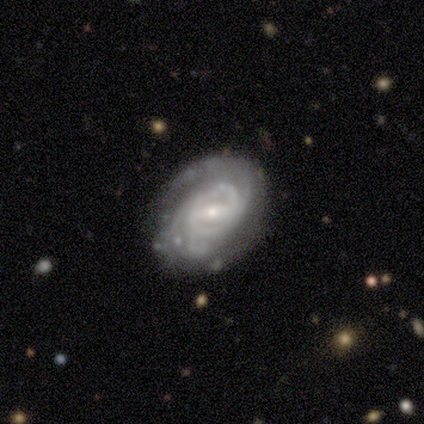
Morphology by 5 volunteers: A featured or disk galaxy (100%) with a strong bar (40%, tied with weak), tight (80%) spiral arms (100%) and a small central bulge (80%). Merging: none (100%).